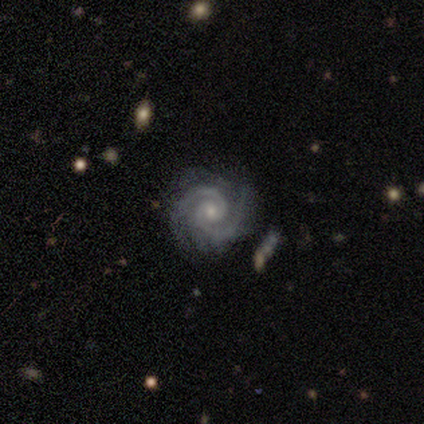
This appears to be a featured or disk galaxy (97%) with no bar (76%), 2 (76%) tight (84%) spiral arms (100%) and a small central bulge (78%). Merging: none (87%).